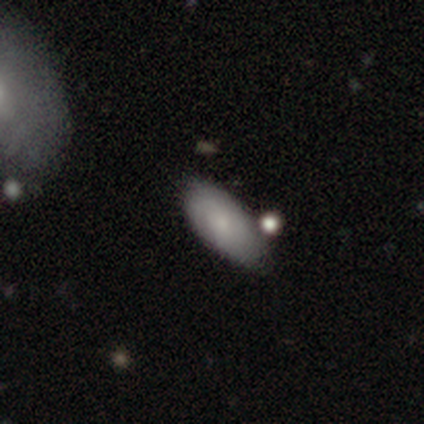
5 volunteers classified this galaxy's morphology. smooth 80%, star or artifact 20%, featured or disk 0%. Down the decision tree: how rounded — in between (100%); merging — none (100%).